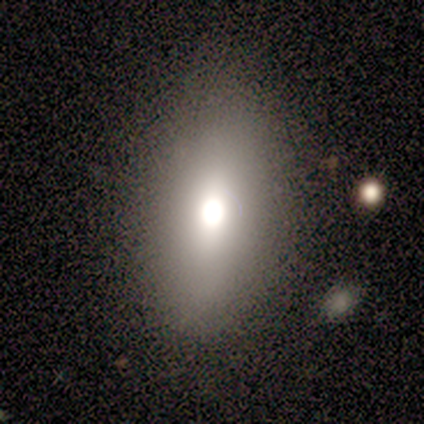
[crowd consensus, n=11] smooth-or-featured: smooth: 64% | star or artifact: 27% | featured or disk: 9%
  how-rounded: in between: 100% | round: 0% | cigar-shaped: 0%
  merging: none: 88% | minor disturbance: 12% | major disturbance: 0% | merger: 0%